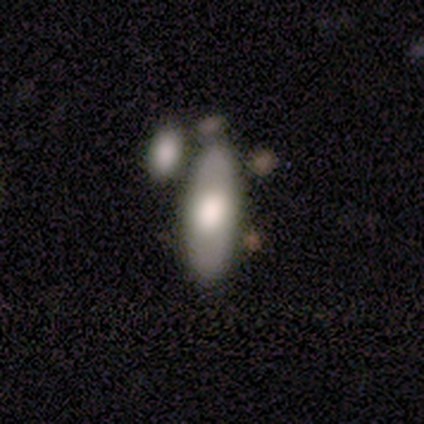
smooth 75%, featured or disk 25%, star or artifact 0%. Down the decision tree: how rounded — in between (67%); merging — none (50%).